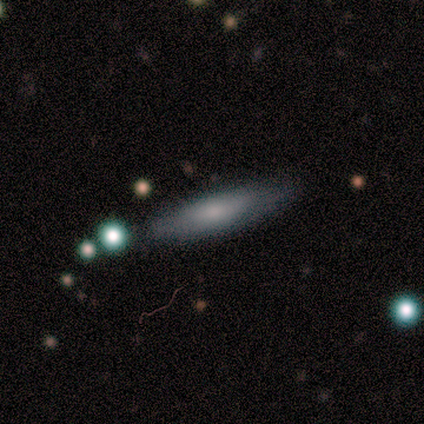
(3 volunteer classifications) Smooth or featured: smooth — 100%
How rounded: in between — 67% (cigar-shaped — 33%)
Merging: none — 67% (minor disturbance — 33%)